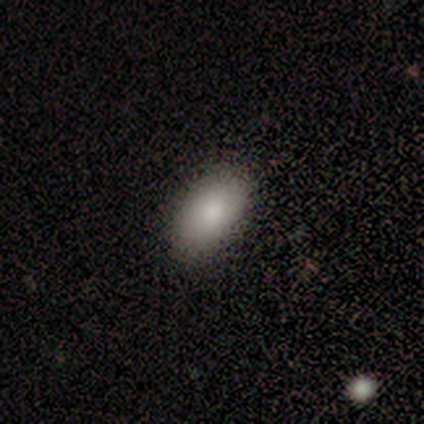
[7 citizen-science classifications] Volunteers were most divided on "smooth or featured": smooth: 86%, featured or disk: 14%, star or artifact: 0%. More confident: how rounded — in between (100%); merging — none (100%).